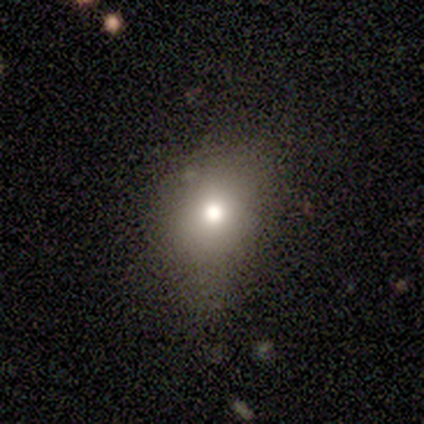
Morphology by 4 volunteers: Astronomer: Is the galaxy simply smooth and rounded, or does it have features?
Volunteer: smooth — 100%.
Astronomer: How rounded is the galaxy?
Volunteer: in between — 75%.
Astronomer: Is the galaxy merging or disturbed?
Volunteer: none — 50%, tied with minor disturbance at 50%.